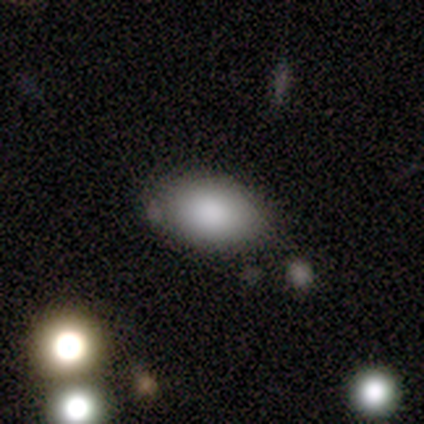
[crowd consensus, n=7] Smooth or featured? smooth (100%)
How rounded? in between (86%)
Merging? none (100%)